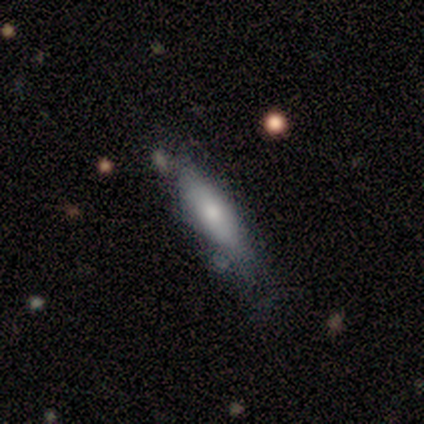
Overall: smooth (80%). How rounded: in between (50%, tied with cigar-shaped). Merging: none (60%; minor disturbance 20%).